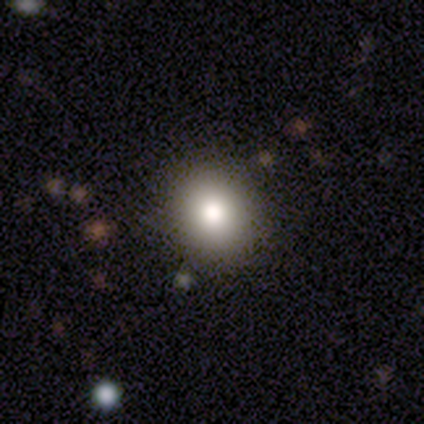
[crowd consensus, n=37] A smooth galaxy with no disk features (62%) that is round (78%). Merging: none (83%).